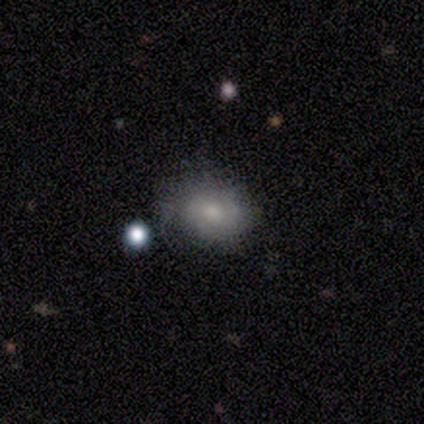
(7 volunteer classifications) Smooth or featured?
  - smooth: 71% *
  - featured or disk: 14%
  - star or artifact: 14%
How rounded?
  - in between: 80% *
  - round: 20%
  - cigar-shaped: 0%
Merging?
  - none: 83% *
  - minor disturbance: 17%
  - major disturbance: 0%
  - merger: 0%